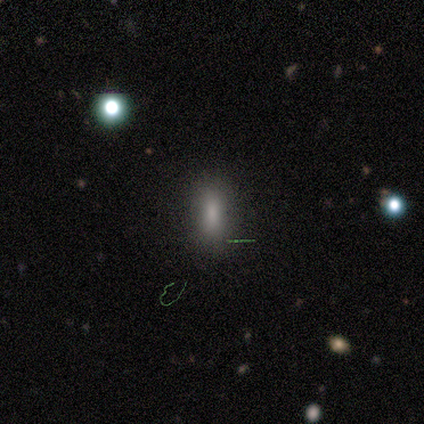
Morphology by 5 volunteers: smooth_or_featured: smooth (p=1.00)
how_rounded: in between (p=0.80) [alt: cigar-shaped p=0.20]
merging: none (p=1.00)